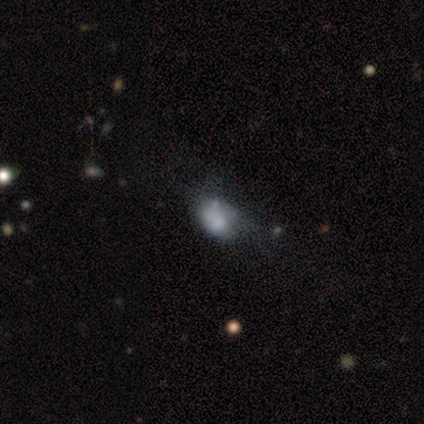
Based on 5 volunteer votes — smooth 60%, featured or disk 40%, star or artifact 0%. Down the decision tree: how rounded — in between (67%); merging — major disturbance (60%).